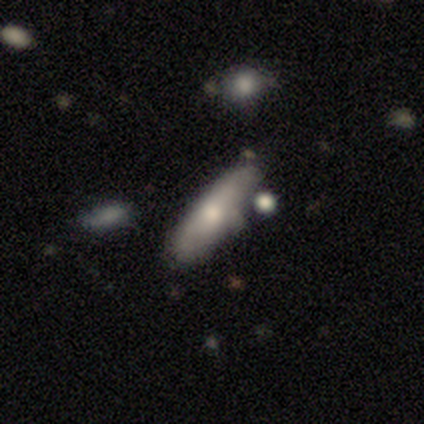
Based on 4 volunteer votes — smooth_or_featured: featured or disk (p=0.75) [alt: smooth p=0.25]
disk_edge_on: yes (p=1.00)
edge_on_bulge: none (p=0.67) [alt: rounded p=0.33]
merging: none (p=0.75) [alt: minor disturbance p=0.25]